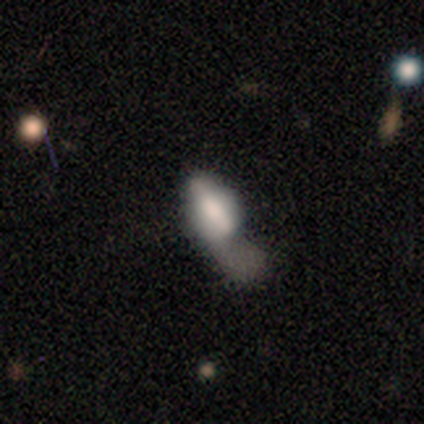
A smooth galaxy with no disk features (50%) that is cigar-shaped (100%). Merging: minor disturbance (33%, tied with major disturbance and merger).